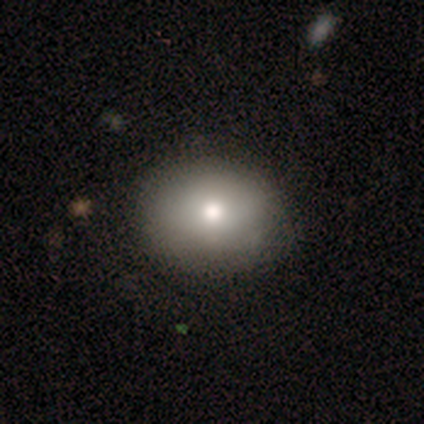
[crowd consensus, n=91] A smooth galaxy with no disk features (78%) that is round (59%).

Vote fractions:
- Smooth or featured? smooth: 78% / featured or disk: 14% / star or artifact: 8%
- How rounded? round: 59% / in between: 41% / cigar-shaped: 0%
- Merging? none: 86% / minor disturbance: 11% / major disturbance: 4% / merger: 0%